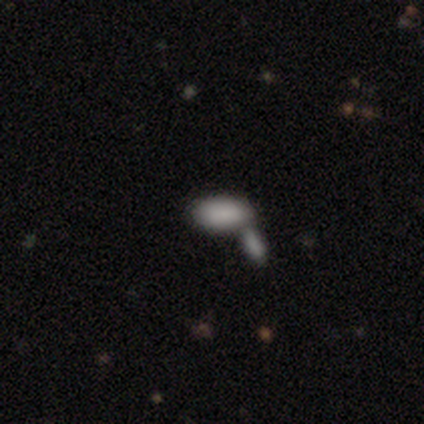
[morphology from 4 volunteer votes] Smooth or featured? smooth (100%)
How rounded? in between (100%)
Merging? merger (75%)